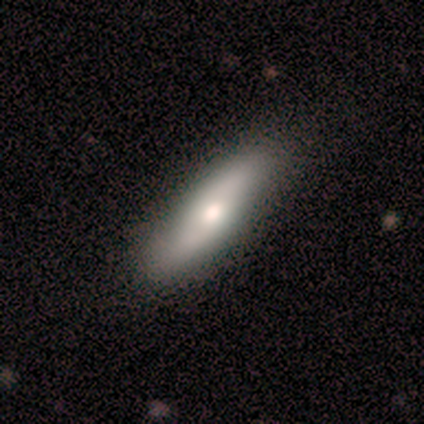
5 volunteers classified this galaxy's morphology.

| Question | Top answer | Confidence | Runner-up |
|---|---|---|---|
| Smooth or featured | smooth | 60% | featured or disk (40%) |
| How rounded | cigar-shaped | 67% | in between (33%) |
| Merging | none | 100% | — |